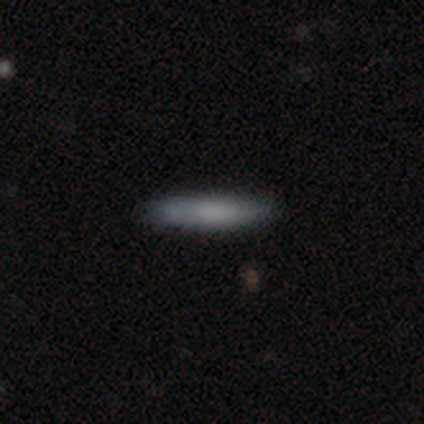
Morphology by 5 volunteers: Smooth or featured?
  - smooth: 60% *
  - featured or disk: 40%
  - star or artifact: 0%
How rounded?
  - cigar-shaped: 67% *
  - in between: 33%
  - round: 0%
Merging?
  - none: 80% *
  - minor disturbance: 20%
  - major disturbance: 0%
  - merger: 0%